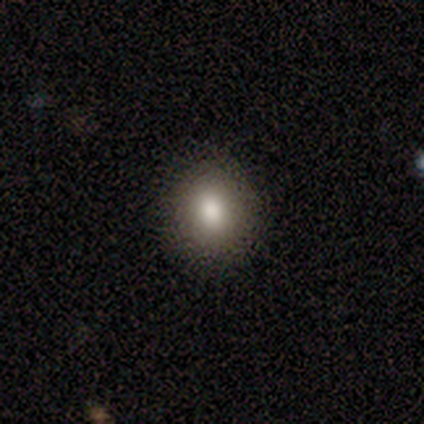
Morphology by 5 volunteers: smooth 80%, star or artifact 20%, featured or disk 0%. Down the decision tree: how rounded — round (75%); merging — none (100%).